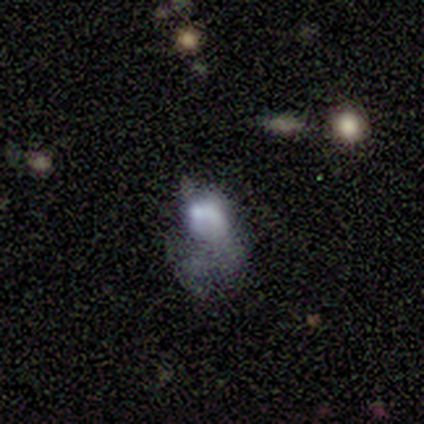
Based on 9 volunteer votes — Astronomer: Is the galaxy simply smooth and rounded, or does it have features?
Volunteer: featured or disk — 56% (runner-up: smooth, 44%).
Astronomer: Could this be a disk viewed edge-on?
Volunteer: no — 100%.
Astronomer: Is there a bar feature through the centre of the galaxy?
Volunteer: no — 80%.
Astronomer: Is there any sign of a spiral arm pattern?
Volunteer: no — 80%.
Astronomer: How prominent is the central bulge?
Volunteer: moderate — 60% (runner-up: large, 40%).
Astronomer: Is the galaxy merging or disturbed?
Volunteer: major disturbance — 44% (runner-up: none, 33%).